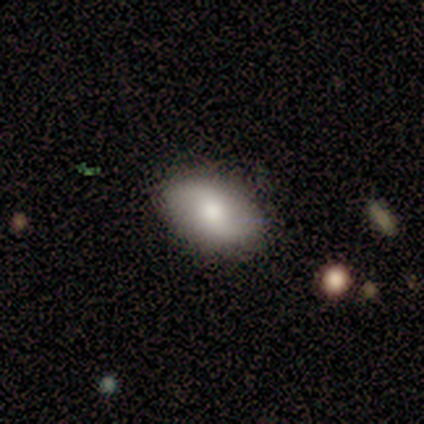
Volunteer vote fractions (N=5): A featured or disk galaxy (60%) with no bar (100%), 2 (100%) loose (100%) spiral arms (67%) and a moderate central bulge (67%).

Vote fractions:
- Smooth or featured? featured or disk: 60% / smooth: 40% / star or artifact: 0%
- Edge-on disk? no: 100% / yes: 0%
- Bar? no: 100% / strong: 0% / weak: 0%
- Spiral arms? yes: 67% / no: 33%
- Spiral winding? loose: 100% / tight: 0% / medium: 0%
- Spiral arm count? 2: 100% / 1: 0% / 3: 0% / 4: 0% / more than 4: 0% / can't tell: 0%
- Bulge size? moderate: 67% / small: 33% / dominant: 0% / large: 0% / none: 0%
- Merging? none: 100% / minor disturbance: 0% / major disturbance: 0% / merger: 0%